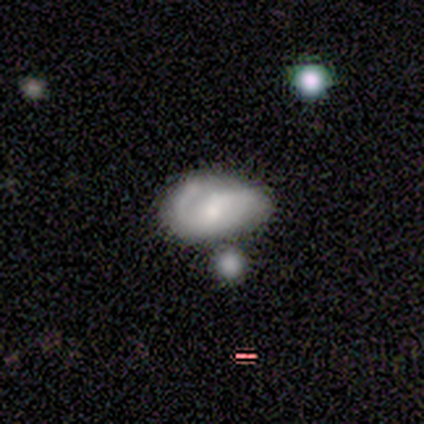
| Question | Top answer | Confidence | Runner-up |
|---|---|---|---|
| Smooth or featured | featured or disk | 67% | smooth (31%) |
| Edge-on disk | no | 100% | — |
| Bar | weak | 50% | no (42%) |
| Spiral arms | yes | 85% | no (15%) |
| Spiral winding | medium | 55% | tight (23%) |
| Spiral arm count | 2 | 64% | 1 (32%) |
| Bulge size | small | 38% | moderate (35%) |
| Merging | minor disturbance | 32% | none (24%) |